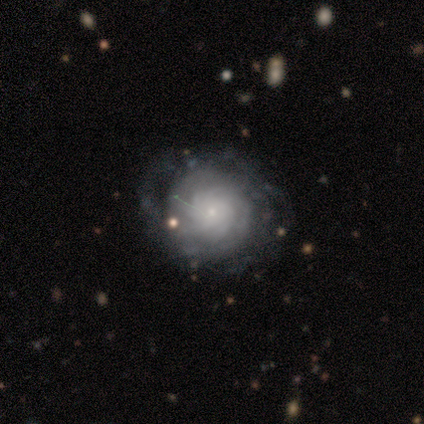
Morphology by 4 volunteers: This is clearly a featured or disk galaxy (100%). It is clearly not viewed edge-on (100%). Bar: likely weak (75%). Spiral arm pattern: likely yes (75%). Spiral arm count: likely can't tell (67%). Spiral winding: likely tight (67%). Central bulge: clearly small (100%). Merging: likely none (75%).